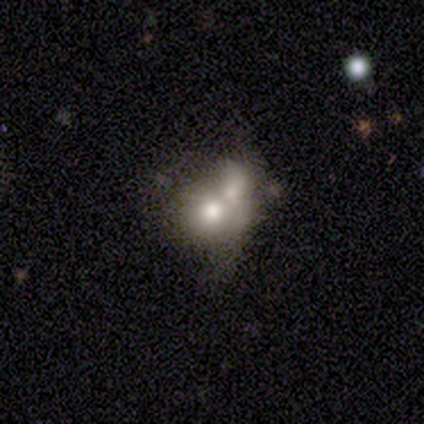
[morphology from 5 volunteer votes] Q: Smooth or featured?
A: smooth (60%); runner-up: featured or disk (40%)
Q: How rounded?
A: round (67%); runner-up: in between (33%)
Q: Merging?
A: merger (60%); runner-up: none (20%)